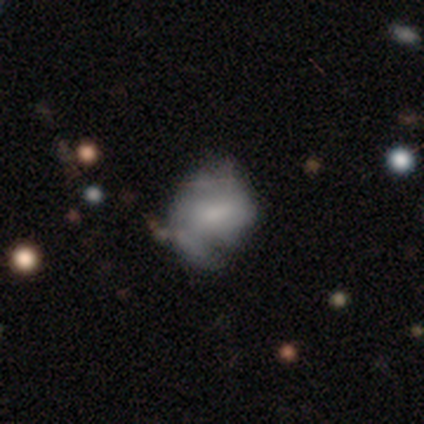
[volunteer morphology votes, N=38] Volunteers were most divided on "merging": none: 27%, minor disturbance: 22%, major disturbance: 14%, merger: 3%. Remaining: edge-on disk — no (90%); spiral arms — yes (72%); bar — no (67%); bulge size — moderate (56%); smooth or featured — featured or disk (53%); spiral arm count — 2 (46%); spiral winding — medium (38%).